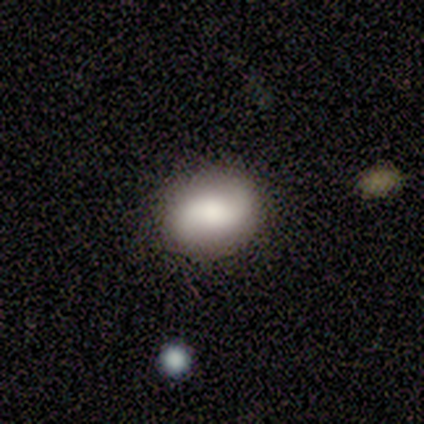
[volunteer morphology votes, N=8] A smooth galaxy with no disk features (88%) that is in between round and cigar-shaped (100%). Merging: none (75%).